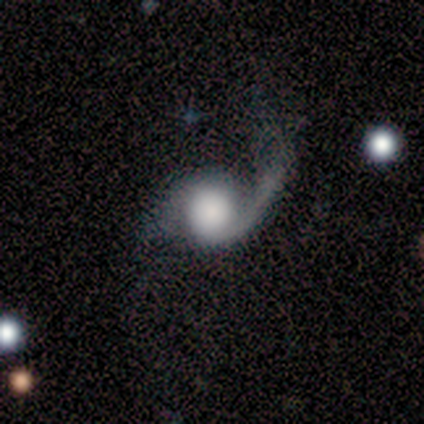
Smooth or featured? 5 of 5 (100%) said featured or disk. Edge-on disk? 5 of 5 (100%) said no. Bar? 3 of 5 (60%) said no. Spiral arms? 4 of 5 (80%) said yes. Spiral winding? 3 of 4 (75%) said loose. Spiral arm count? 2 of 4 (50%, tied with 2) said 1. Bulge size? 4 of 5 (80%) said large. Merging? 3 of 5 (60%) said minor disturbance.